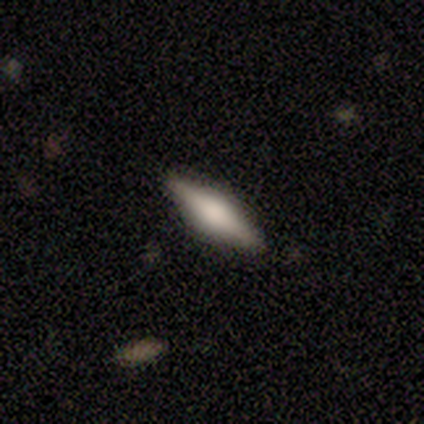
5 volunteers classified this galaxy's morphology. Volunteers were most divided on "smooth or featured": featured or disk: 60%, smooth: 40%, star or artifact: 0%. More confident: edge-on disk — yes (100%); edge-on bulge — boxy (67%); merging — none (60%).